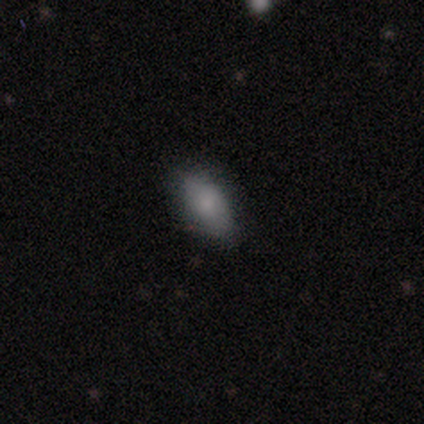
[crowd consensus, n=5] Morphology: type=smooth (80%); roundness=in between (100%); merging=none (80%).